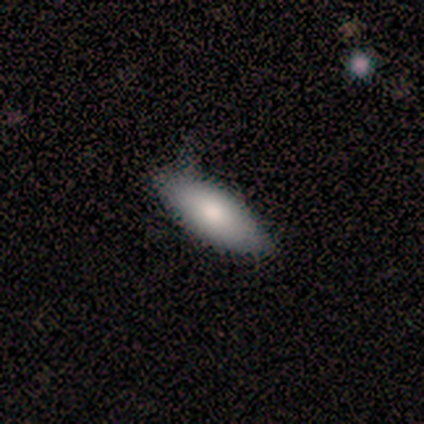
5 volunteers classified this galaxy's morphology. A smooth galaxy with no disk features (100%) that is cigar-shaped (60%). Merging: none (60%).